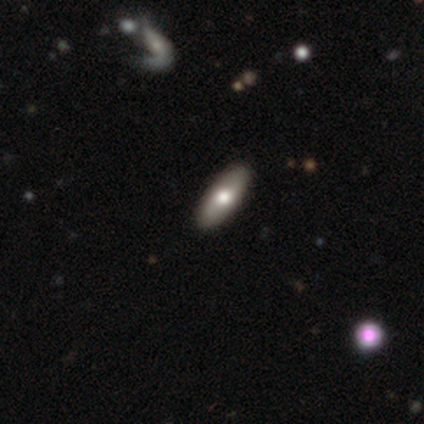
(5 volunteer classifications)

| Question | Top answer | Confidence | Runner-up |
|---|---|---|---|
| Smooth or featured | smooth | 60% | featured or disk (40%) |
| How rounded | in between | 67% | cigar-shaped (33%) |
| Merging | none | 60% | minor disturbance (40%) |